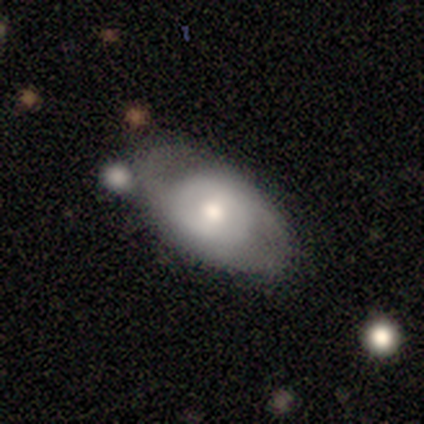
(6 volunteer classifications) smooth_or_featured: smooth (p=0.50) [tied with: featured or disk p=0.50]
how_rounded: in between (p=1.00)
merging: none (p=0.67) [alt: minor disturbance p=0.17]